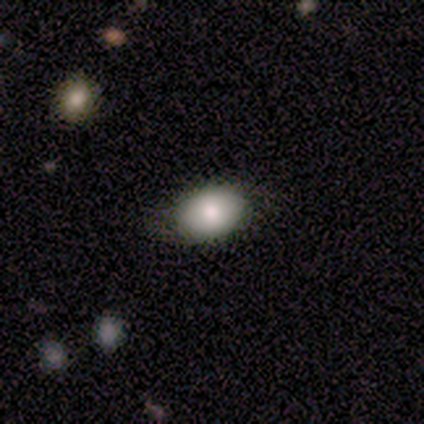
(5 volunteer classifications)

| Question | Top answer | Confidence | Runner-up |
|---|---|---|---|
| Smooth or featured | smooth | 60% | featured or disk (40%) |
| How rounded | in between | 67% | round (33%) |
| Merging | none | 100% | — |